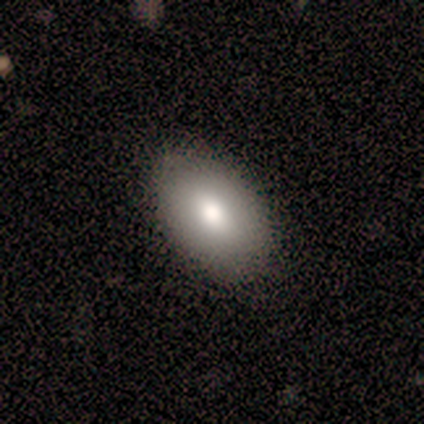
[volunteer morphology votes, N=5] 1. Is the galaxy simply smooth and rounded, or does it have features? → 80% smooth, 20% featured or disk, 0% star or artifact.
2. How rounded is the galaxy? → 100% in between, 0% round, 0% cigar-shaped.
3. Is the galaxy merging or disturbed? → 80% none, 20% minor disturbance, 0% major disturbance, 0% merger.